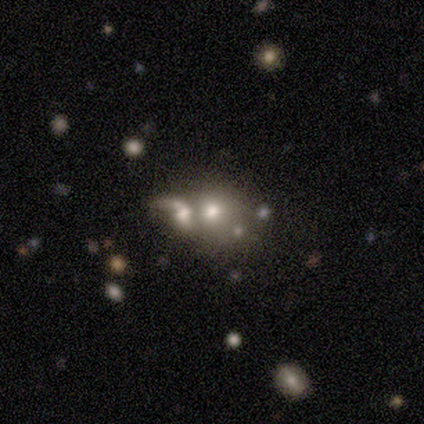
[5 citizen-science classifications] A featured or disk galaxy (40%, tied with star or artifact) with a weak bar (50%, tied with no), 1 (100%) loose (100%) spiral arms (50%, tied with no) and a moderate central bulge (50%, tied with small).

Vote fractions:
- Smooth or featured? featured or disk: 40% (tied) / star or artifact: 40% (tied) / smooth: 20%
- Edge-on disk? no: 100% / yes: 0%
- Bar? weak: 50% (tied) / no: 50% (tied) / strong: 0%
- Spiral arms? yes: 50% (tied) / no: 50% (tied)
- Spiral winding? loose: 100% / tight: 0% / medium: 0%
- Spiral arm count? 1: 100% / 2: 0% / 3: 0% / 4: 0% / more than 4: 0% / can't tell: 0%
- Bulge size? moderate: 50% (tied) / small: 50% (tied) / dominant: 0% / large: 0% / none: 0%
- Merging? minor disturbance: 33% (tied) / major disturbance: 33% (tied) / merger: 33% (tied) / none: 0%